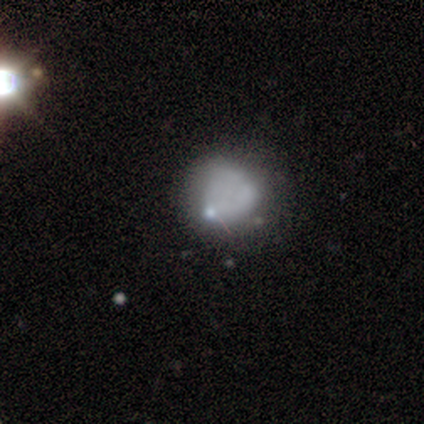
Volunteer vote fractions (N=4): Smooth or featured? 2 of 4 (50%, tied with featured or disk) said smooth. How rounded? 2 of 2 (100%) said round. Merging? 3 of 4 (75%) said none.